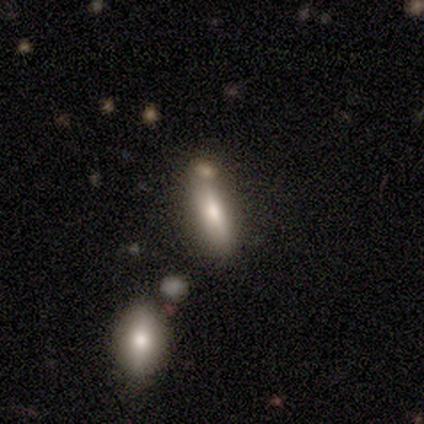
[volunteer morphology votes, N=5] smooth 80%, star or artifact 20%, featured or disk 0%. Down the decision tree: how rounded — in between (100%); merging — none (50%, tied with merger).